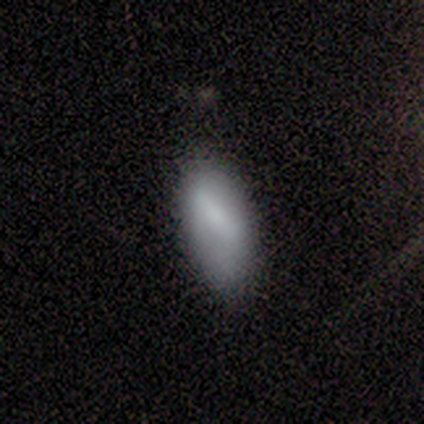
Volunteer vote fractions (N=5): Q: Smooth or featured?
A: smooth (100%)
Q: How rounded?
A: in between (100%)
Q: Merging?
A: minor disturbance (60%); runner-up: none (40%)